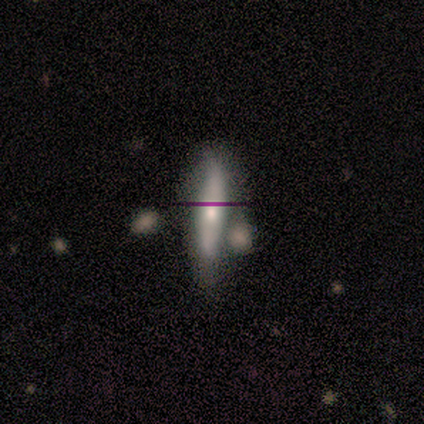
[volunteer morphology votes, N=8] smooth-or-featured: featured or disk: 62% | smooth: 25% | star or artifact: 12%
  disk-edge-on: yes: 60% | no: 40%
    edge-on-bulge: rounded: 100% | boxy: 0% | none: 0%
  merging: none: 43% (tied) | minor disturbance: 43% (tied) | merger: 14% | major disturbance: 0%